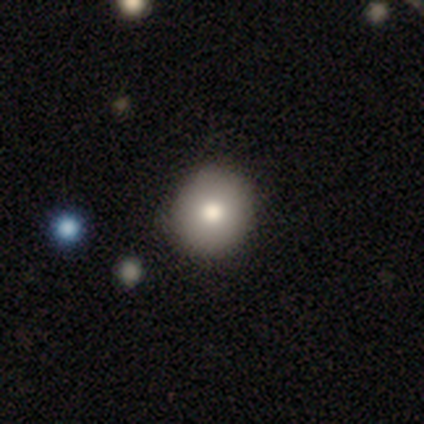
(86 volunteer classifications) Morphology: type=smooth (85%); roundness=round (86%); merging=none (90%).